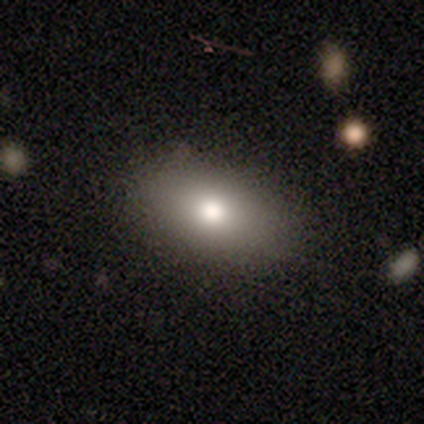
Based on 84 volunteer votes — A smooth galaxy with no disk features (79%) that is in between round and cigar-shaped (86%). Merging: none (84%).